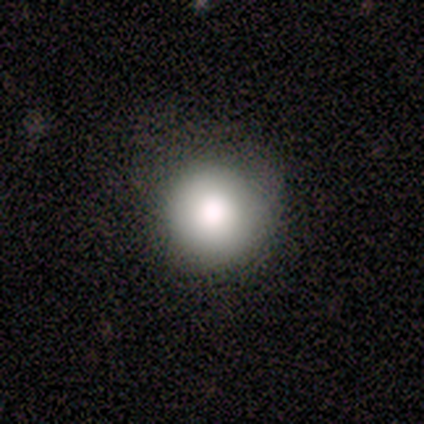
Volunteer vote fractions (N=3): smooth-or-featured: smooth: 100% | featured or disk: 0% | star or artifact: 0%
  how-rounded: round: 100% | in between: 0% | cigar-shaped: 0%
  merging: none: 100% | minor disturbance: 0% | major disturbance: 0% | merger: 0%